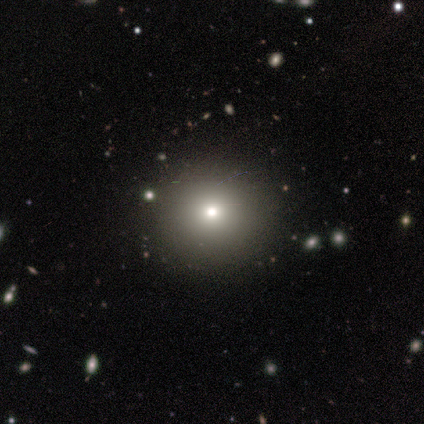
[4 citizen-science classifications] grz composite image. It shows a featured or disk galaxy (50%) with no bar (100%), no spiral arms (100%) and a small central bulge (100%). Merging: none (100%).